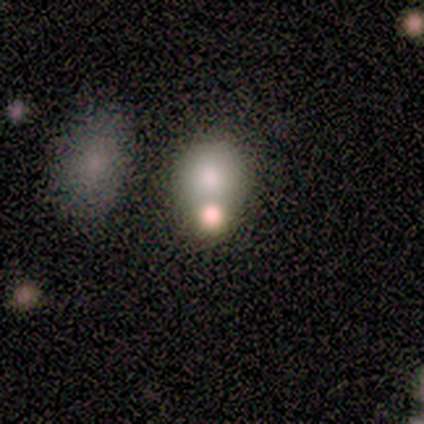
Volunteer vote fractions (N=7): Smooth or featured? 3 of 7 (43%) said featured or disk. Edge-on disk? 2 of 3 (67%) said no. Bar? 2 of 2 (100%) said no. Spiral arms? 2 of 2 (100%) said no. Bulge size? 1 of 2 (50%, tied with large) said dominant. Merging? 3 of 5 (60%) said merger.